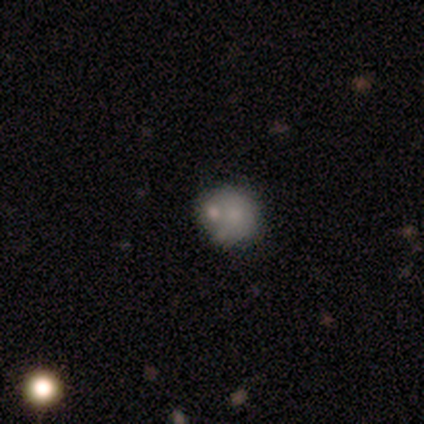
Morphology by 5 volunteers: A smooth galaxy with no disk features (100%) that is round (100%). Merging: none (60%).